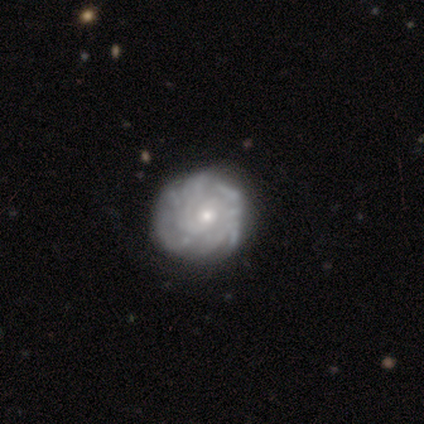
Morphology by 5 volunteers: Volunteers were most divided on "smooth or featured" (2-way tie): smooth: 40%, featured or disk: 40%, star or artifact: 20%. More confident: how rounded — round (100%); merging — none (75%).